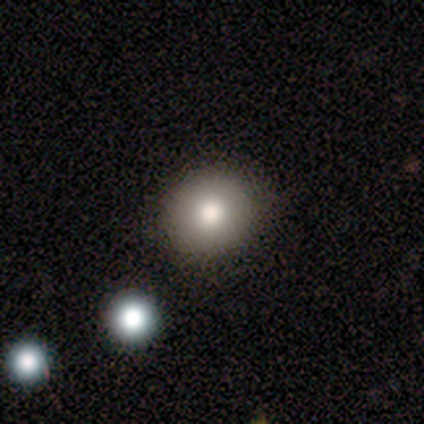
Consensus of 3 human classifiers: Smooth or featured? smooth (100%)
How rounded? round (67%)
Merging? none (100%)